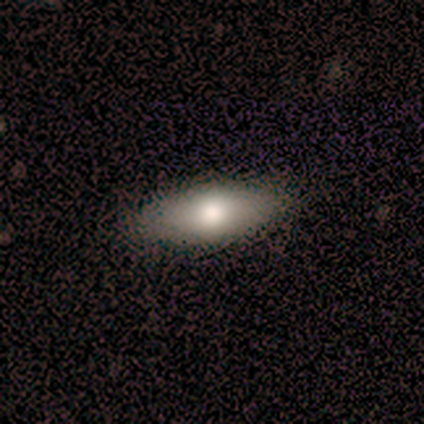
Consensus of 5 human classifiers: Smooth or featured: smooth — 100%
How rounded: in between — 60% (cigar-shaped — 40%)
Merging: none — 100%